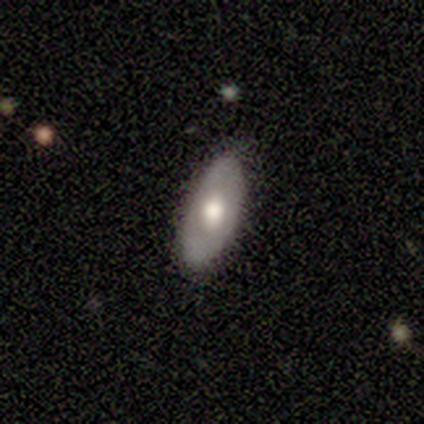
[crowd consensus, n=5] Overall: smooth (80%). How rounded: in between (75%). Merging: none (100%).